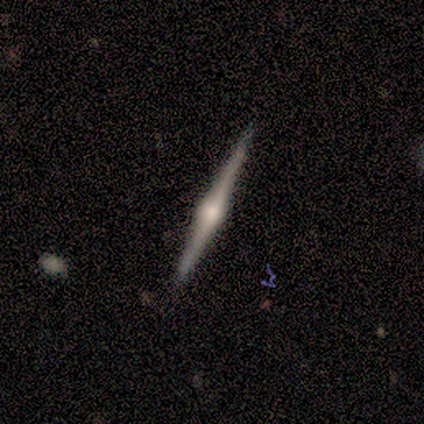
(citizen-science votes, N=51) Overall: featured or disk (86%). Edge-on disk: yes (98%). Edge-on bulge: rounded (100%). Merging: none (88%).